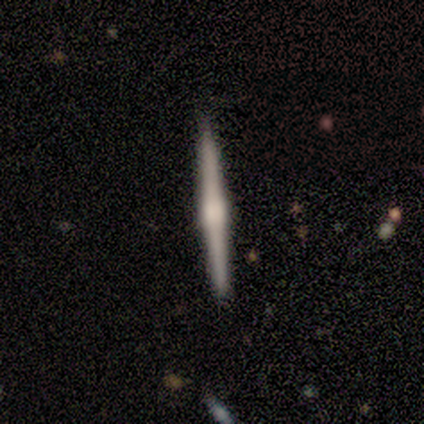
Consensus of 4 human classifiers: A featured or disk galaxy (50%) viewed edge-on (100%) with a boxy central bulge (50%, tied with rounded).

Vote fractions:
- Smooth or featured? featured or disk: 50% / smooth: 25% / star or artifact: 25%
- Edge-on disk? yes: 100% / no: 0%
- Edge-on bulge? boxy: 50% (tied) / rounded: 50% (tied) / none: 0%
- Merging? none: 100% / minor disturbance: 0% / major disturbance: 0% / merger: 0%